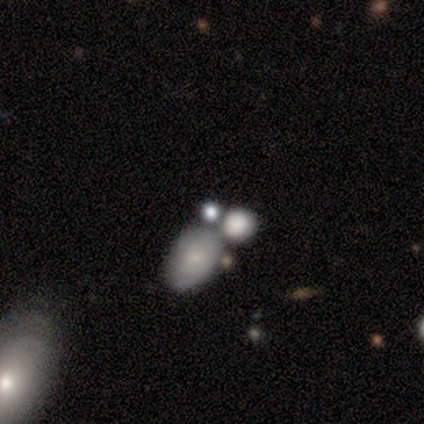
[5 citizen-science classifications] This is likely a smooth galaxy (60%). How rounded: likely round (67%). Merging: marginally none (40%).